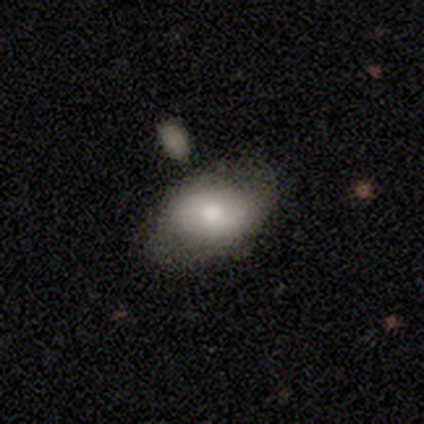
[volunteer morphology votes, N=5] type=smooth (60%); roundness=in between (100%); merging=none (50%).